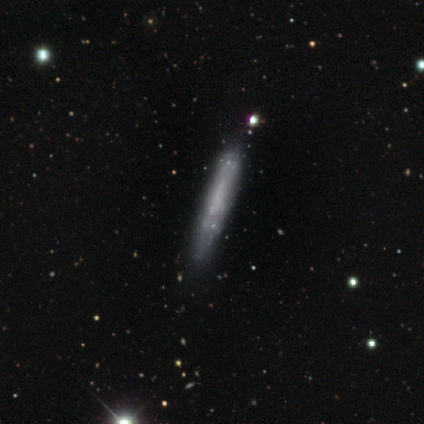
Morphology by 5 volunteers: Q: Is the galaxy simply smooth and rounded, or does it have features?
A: smooth — 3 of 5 (60%).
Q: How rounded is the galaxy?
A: cigar-shaped — 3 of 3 (100%).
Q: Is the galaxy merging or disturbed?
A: none — 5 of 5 (100%).